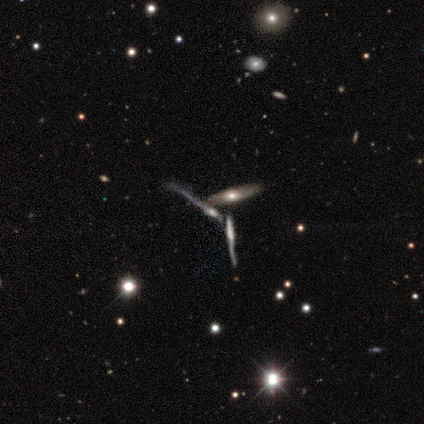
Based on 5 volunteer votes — smooth-or-featured: featured or disk: 60% | star or artifact: 40% | smooth: 0%
  disk-edge-on: yes: 67% | no: 33%
    edge-on-bulge: rounded: 100% | boxy: 0% | none: 0%
  merging: merger: 67% | none: 33% | minor disturbance: 0% | major disturbance: 0%